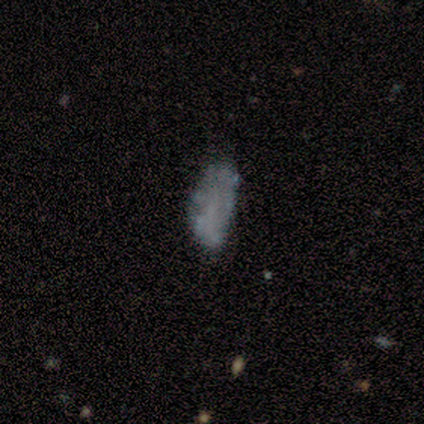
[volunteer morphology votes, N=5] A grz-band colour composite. It shows a smooth galaxy with no disk features (80%) that is in between round and cigar-shaped (100%). Merging: none (100%).